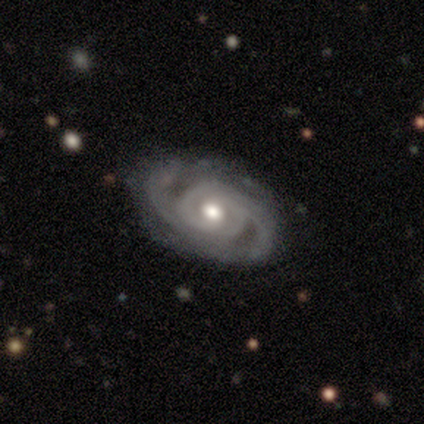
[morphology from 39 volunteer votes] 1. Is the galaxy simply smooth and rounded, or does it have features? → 87% featured or disk, 8% star or artifact, 5% smooth.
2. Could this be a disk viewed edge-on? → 94% no, 6% yes.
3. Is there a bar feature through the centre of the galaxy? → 62% no, 31% weak, 6% strong.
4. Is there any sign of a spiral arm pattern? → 97% yes, 3% no.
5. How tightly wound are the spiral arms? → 68% tight, 26% medium, 6% loose.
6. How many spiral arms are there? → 74% 2, 19% can't tell, 3% 3, 3% 4, 0% 1, 0% more than 4.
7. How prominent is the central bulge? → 72% moderate, 16% small, 12% large, 0% dominant, 0% none.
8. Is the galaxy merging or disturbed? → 78% none, 11% minor disturbance, 8% major disturbance, 3% merger.